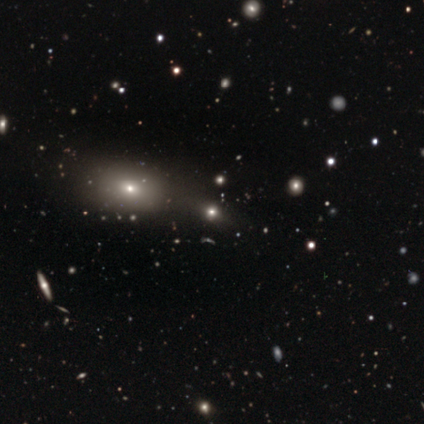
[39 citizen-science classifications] This is marginally a smooth galaxy (38%). How rounded: likely in between (60%). Merging: likely none (60%).